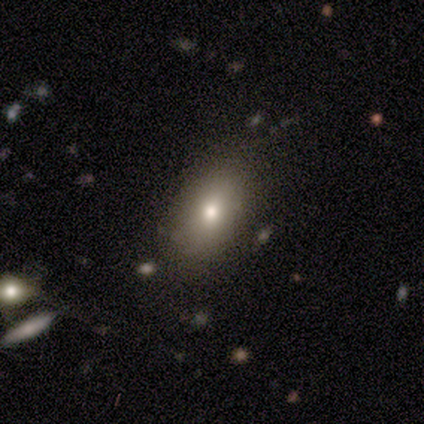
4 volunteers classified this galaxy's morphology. smooth-or-featured: smooth: 75% | star or artifact: 25% | featured or disk: 0%
  how-rounded: in between: 100% | round: 0% | cigar-shaped: 0%
  merging: none: 67% | merger: 33% | minor disturbance: 0% | major disturbance: 0%